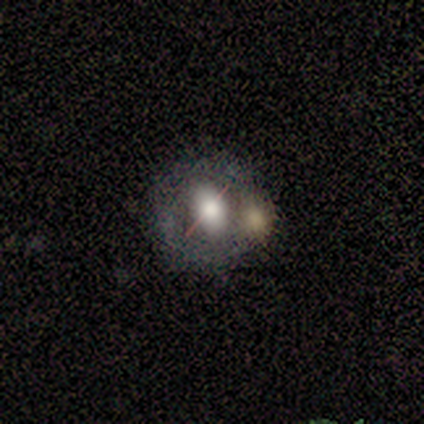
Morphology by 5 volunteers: Smooth or featured? featured or disk (60%)
Edge-on disk? no (100%)
Bar? strong (33%, tied with weak and no)
Spiral arms? no (67%)
Bulge size? dominant (33%, tied with large and moderate)
Merging? merger (50%)